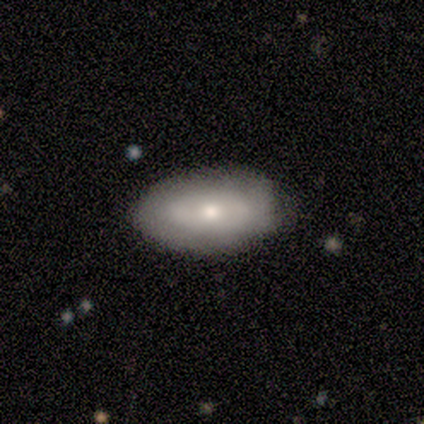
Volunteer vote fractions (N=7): A smooth galaxy with no disk features (57%) that is in between round and cigar-shaped (75%).

Vote fractions:
- Smooth or featured? smooth: 57% / featured or disk: 43% / star or artifact: 0%
- How rounded? in between: 75% / cigar-shaped: 25% / round: 0%
- Merging? none: 100% / minor disturbance: 0% / major disturbance: 0% / merger: 0%